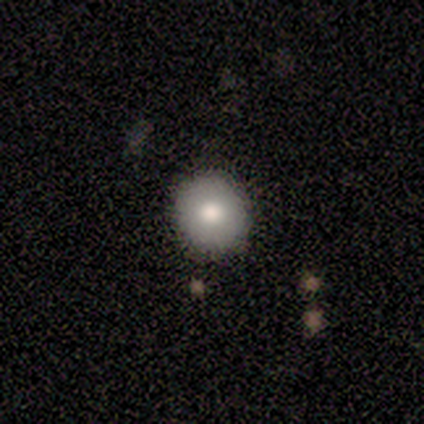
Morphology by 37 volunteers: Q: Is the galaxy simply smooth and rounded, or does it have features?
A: smooth — 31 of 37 (84%).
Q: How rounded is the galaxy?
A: round — 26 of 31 (84%).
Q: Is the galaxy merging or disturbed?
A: none — 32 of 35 (91%).